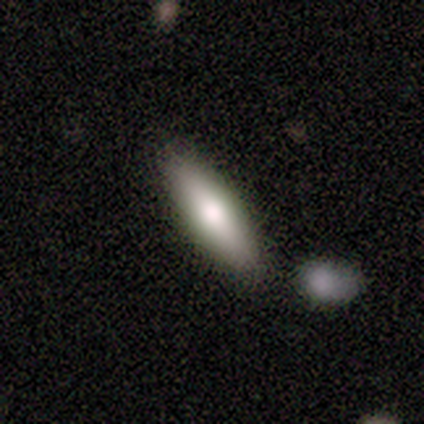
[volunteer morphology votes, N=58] smooth 67%, featured or disk 28%, star or artifact 5%. Down the decision tree: how rounded — in between (51%); merging — none (78%).